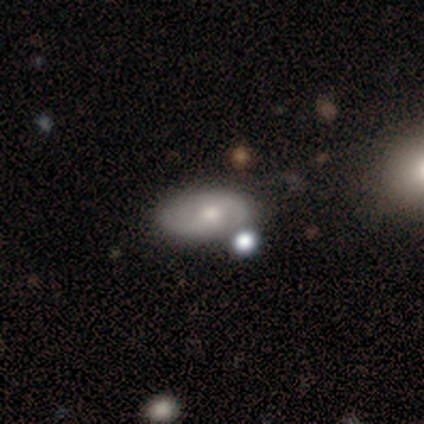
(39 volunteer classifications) A featured or disk galaxy (62%) with no bar (54%), 2 (79%) tight (37%, tied with medium) spiral arms (79%) and a small central bulge (50%).

Vote fractions:
- Smooth or featured? featured or disk: 62% / smooth: 33% / star or artifact: 5%
- Edge-on disk? no: 100% / yes: 0%
- Bar? no: 54% / weak: 38% / strong: 8%
- Spiral arms? yes: 79% / no: 21%
- Spiral winding? tight: 37% (tied) / medium: 37% (tied) / loose: 26%
- Spiral arm count? 2: 79% / can't tell: 16% / 1: 5% / 3: 0% / 4: 0% / more than 4: 0%
- Bulge size? small: 50% / moderate: 46% / none: 4% / dominant: 0% / large: 0%
- Merging? none: 70% / minor disturbance: 22% / merger: 5% / major disturbance: 3%